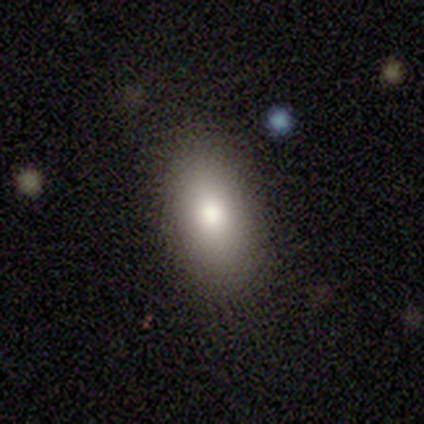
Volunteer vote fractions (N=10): smooth-or-featured: smooth: 90% | star or artifact: 10% | featured or disk: 0%
  how-rounded: in between: 100% | round: 0% | cigar-shaped: 0%
  merging: none: 100% | minor disturbance: 0% | major disturbance: 0% | merger: 0%